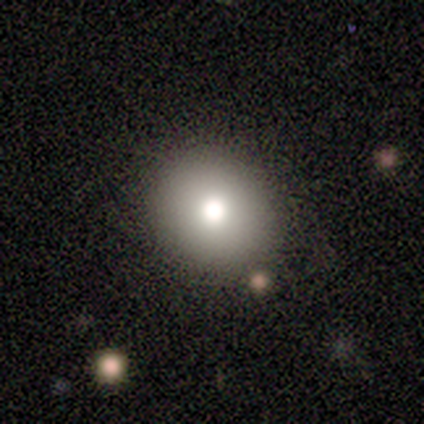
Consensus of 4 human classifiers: Smooth or featured? smooth (100%)
How rounded? round (100%)
Merging? none (100%)